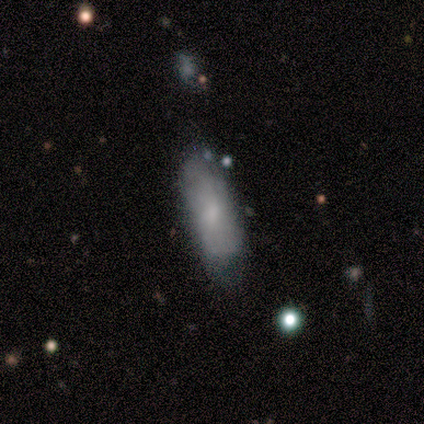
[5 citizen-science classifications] Smooth or featured? smooth (80%)
How rounded? in between (75%)
Merging? minor disturbance (80%)